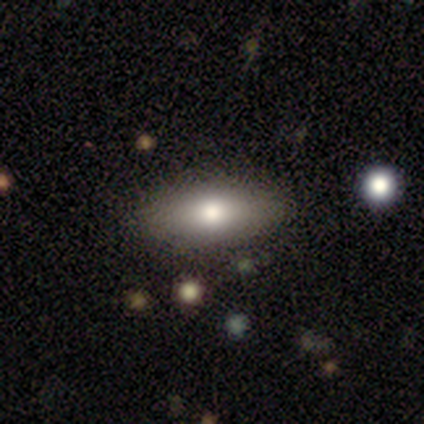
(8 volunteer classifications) Smooth or featured: smooth — 88% (featured or disk — 12%)
How rounded: in between — 86% (cigar-shaped — 14%)
Merging: none — 100%